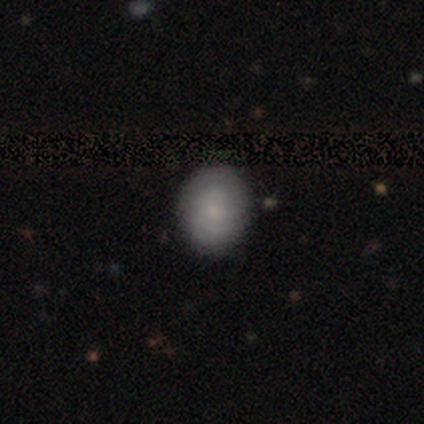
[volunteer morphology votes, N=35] Smooth or featured? 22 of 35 (63%) said smooth. How rounded? 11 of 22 (50%) said round. Merging? 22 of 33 (67%) said none.